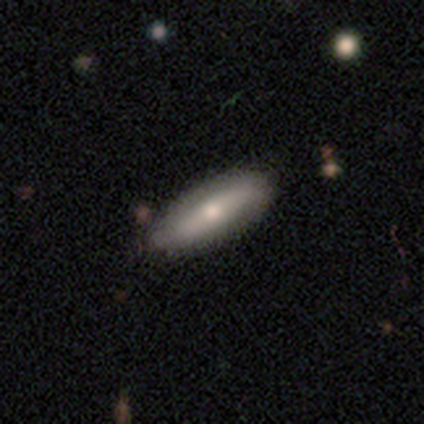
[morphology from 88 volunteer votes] Q: Smooth or featured?
A: smooth (49%); runner-up: featured or disk (42%)
Q: How rounded?
A: cigar-shaped (53%); runner-up: in between (42%)
Q: Merging?
A: none (86%); runner-up: minor disturbance (10%)